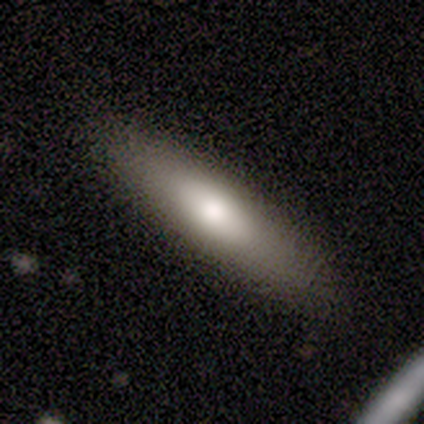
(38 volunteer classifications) smooth-or-featured: smooth: 79% | featured or disk: 18% | star or artifact: 3%
  how-rounded: cigar-shaped: 70% | in between: 27% | round: 3%
  merging: none: 86% | minor disturbance: 11% | major disturbance: 3% | merger: 0%